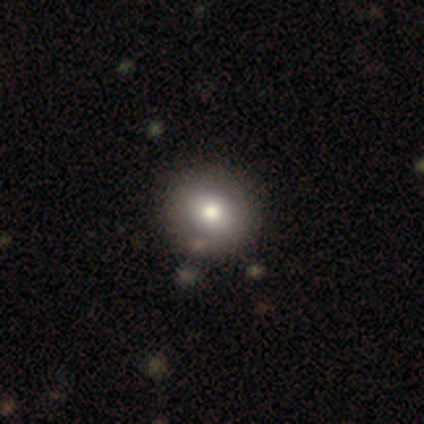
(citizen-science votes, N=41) This appears to be a smooth galaxy with no disk features (76%) that is round (68%). Merging: none (68%).